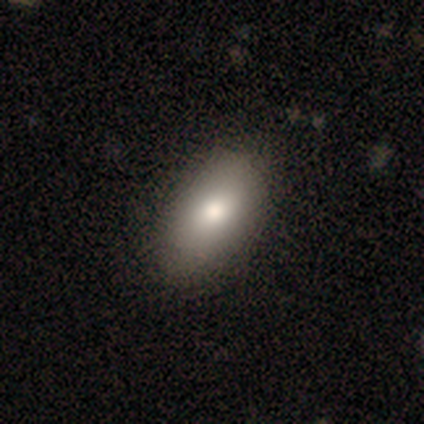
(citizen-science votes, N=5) Volunteers were most divided on "merging": none: 80%, minor disturbance: 20%, major disturbance: 0%, merger: 0%. More confident: smooth or featured — smooth (100%); how rounded — in between (100%).